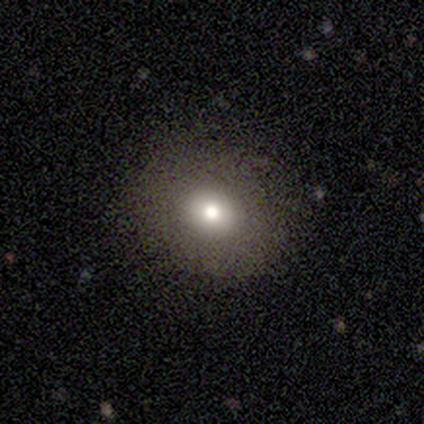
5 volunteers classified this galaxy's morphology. Smooth or featured?
  - smooth: 80% *
  - featured or disk: 20%
  - star or artifact: 0%
How rounded?
  - round: 50% * (tied)
  - in between: 50% * (tied)
  - cigar-shaped: 0%
Merging?
  - none: 100% *
  - minor disturbance: 0%
  - major disturbance: 0%
  - merger: 0%